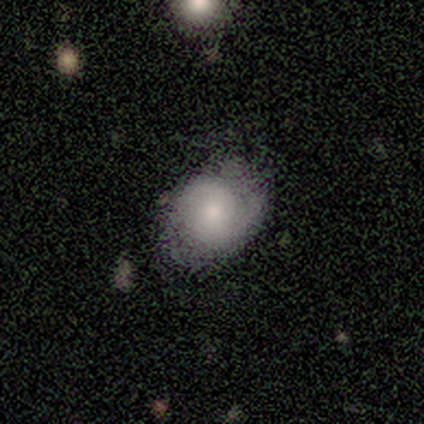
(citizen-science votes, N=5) Smooth or featured?
  - smooth: 60% *
  - featured or disk: 40%
  - star or artifact: 0%
How rounded?
  - in between: 67% *
  - round: 33%
  - cigar-shaped: 0%
Merging?
  - none: 80% *
  - minor disturbance: 20%
  - major disturbance: 0%
  - merger: 0%